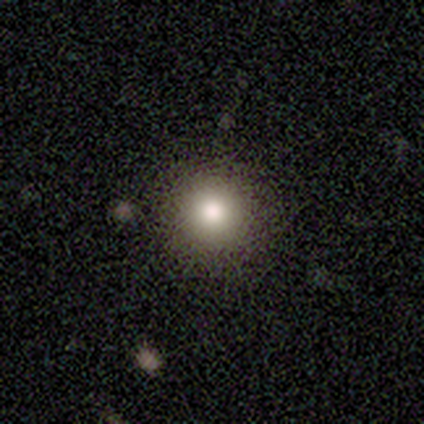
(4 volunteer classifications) Smooth or featured? smooth (100%)
How rounded? round (100%)
Merging? none (100%)